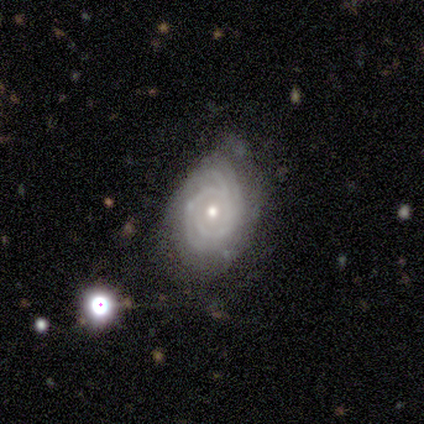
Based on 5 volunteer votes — Morphology: type=featured or disk (80%); edge-on=no (100%); bar=no (75%); spiral arms=yes (100%); winding=tight (100%); arm count=2 (50%); bulge=small (75%); merging=none (40%, tied with minor disturbance).